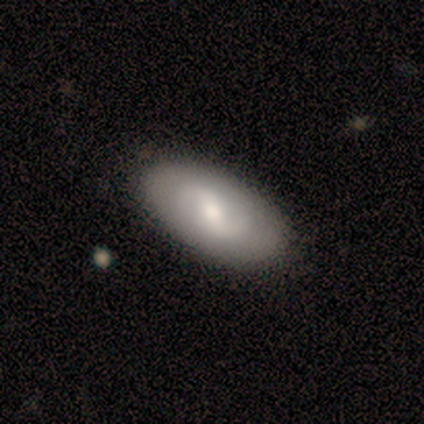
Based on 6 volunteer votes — featured or disk 67%, smooth 33%, star or artifact 0%. Down the decision tree: edge-on disk — no (100%); bar — weak (75%); spiral arms — yes (50%, tied with no); spiral arm count — 2 (100%); spiral winding — medium (50%, tied with loose); bulge size — moderate (75%); merging — none (83%).